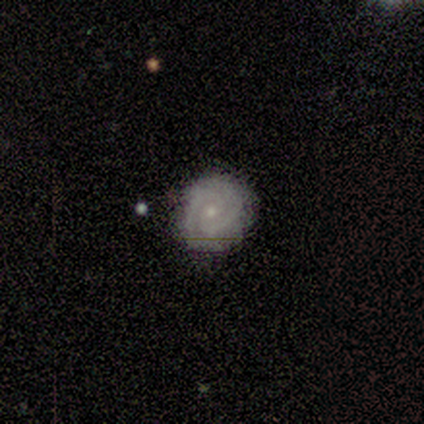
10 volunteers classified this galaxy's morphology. Smooth or featured: featured or disk — 80% (smooth — 20%)
Edge-on disk: no — 100%
Bar: no — 88% (weak — 12%)
Spiral arms: yes — 100%
Spiral winding: tight — 88% (medium — 12%)
Spiral arm count: 2 — 50% (can't tell — 25%)
Bulge size: small — 88% (none — 12%)
Merging: none — 90% (minor disturbance — 10%)